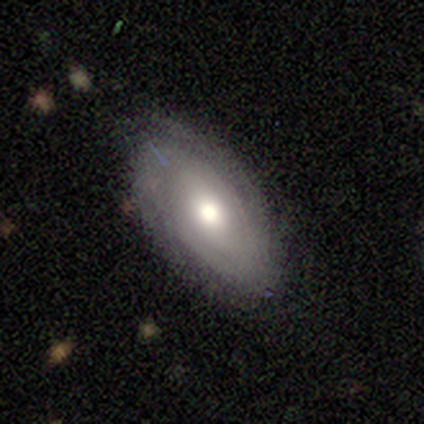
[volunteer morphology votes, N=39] Q: Smooth or featured?
A: smooth (54%); runner-up: featured or disk (41%)
Q: How rounded?
A: in between (86%); runner-up: round (14%)
Q: Merging?
A: none (68%); runner-up: minor disturbance (16%)